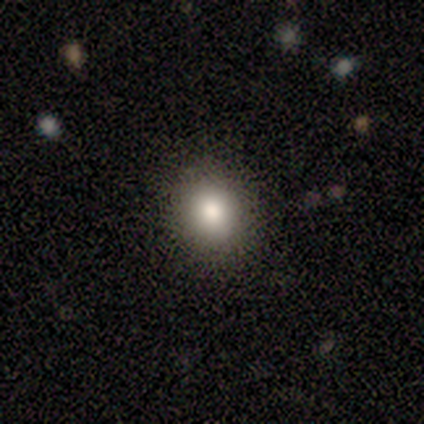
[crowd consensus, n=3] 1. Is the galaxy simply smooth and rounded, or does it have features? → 67% smooth, 33% star or artifact, 0% featured or disk.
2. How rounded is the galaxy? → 100% in between, 0% round, 0% cigar-shaped.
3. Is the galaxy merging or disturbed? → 100% none, 0% minor disturbance, 0% major disturbance, 0% merger.